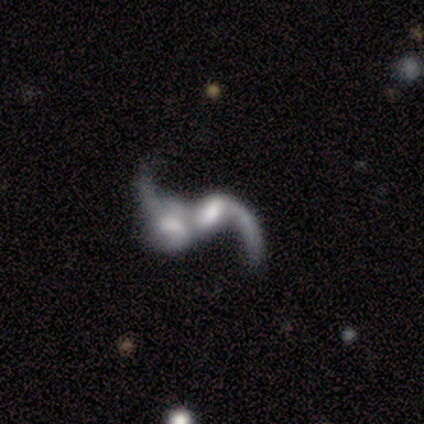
A featured or disk galaxy (71%) with a weak bar (60%), 2 (75%) loose (75%) spiral arms (80%) and a small central bulge (40%).

Vote fractions:
- Smooth or featured? featured or disk: 71% / smooth: 29% / star or artifact: 0%
- Edge-on disk? no: 100% / yes: 0%
- Bar? weak: 60% / no: 40% / strong: 0%
- Spiral arms? yes: 80% / no: 20%
- Spiral winding? loose: 75% / medium: 25% / tight: 0%
- Spiral arm count? 2: 75% / 1: 25% / 3: 0% / 4: 0% / more than 4: 0% / can't tell: 0%
- Bulge size? small: 40% / large: 20% / moderate: 20% / none: 20% / dominant: 0%
- Merging? merger: 71% / minor disturbance: 14% / major disturbance: 14% / none: 0%